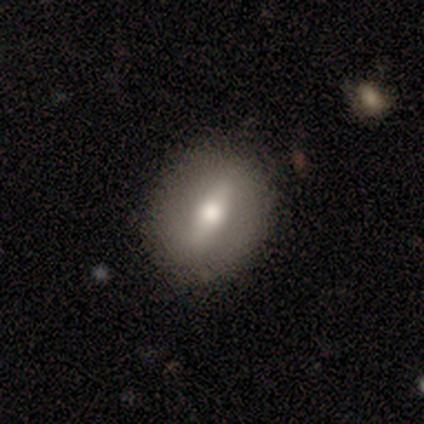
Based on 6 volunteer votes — A featured or disk galaxy (67%) with a weak bar (75%), no spiral arms (100%) and a moderate central bulge (50%, tied with small). Merging: none (83%).